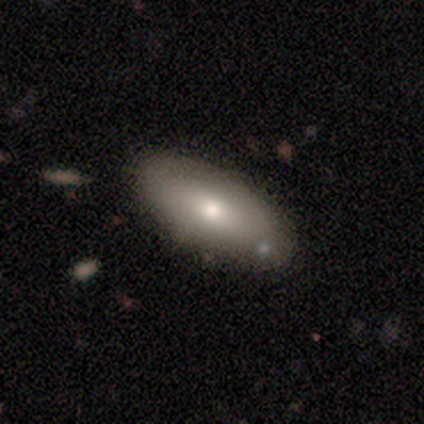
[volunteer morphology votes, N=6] A smooth galaxy with no disk features (67%) that is in between round and cigar-shaped (75%). Merging: none (100%).